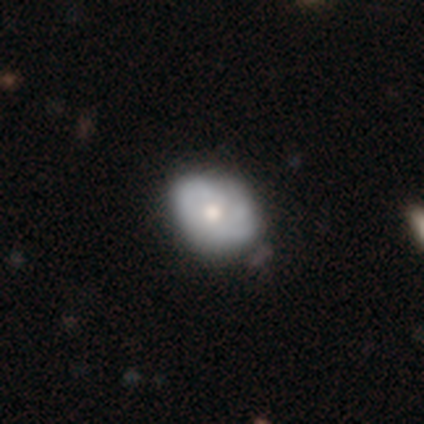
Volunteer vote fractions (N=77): A smooth galaxy with no disk features (52%) that is in between round and cigar-shaped (65%).

Vote fractions:
- Smooth or featured? smooth: 52% / featured or disk: 47% / star or artifact: 1%
- How rounded? in between: 65% / round: 35% / cigar-shaped: 0%
- Merging? none: 28% / minor disturbance: 21% / merger: 3% / major disturbance: 1%